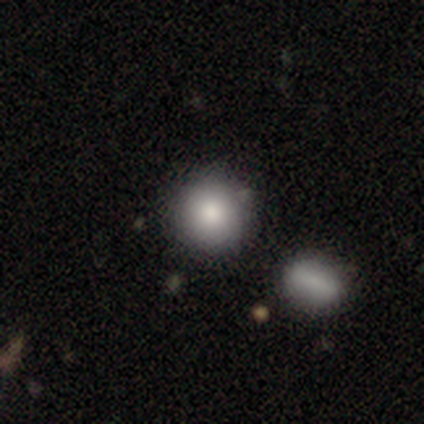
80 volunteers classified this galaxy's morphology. smooth 89%, star or artifact 6%, featured or disk 5%. Down the decision tree: how rounded — round (92%); merging — none (41%).